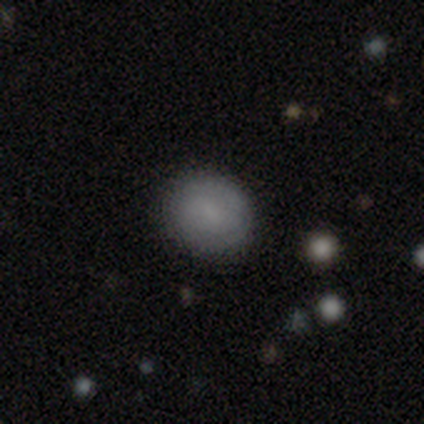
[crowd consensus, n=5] This is clearly a smooth galaxy (100%). How rounded: likely round (60%). Merging: clearly none (80%).